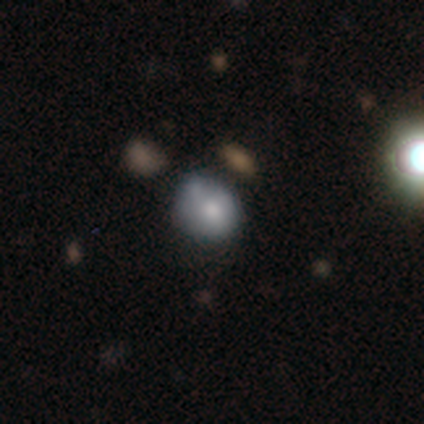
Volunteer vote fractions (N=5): smooth_or_featured: star or artifact (p=0.60) [alt: smooth p=0.40]